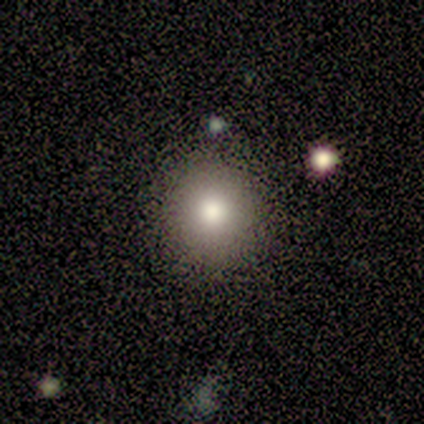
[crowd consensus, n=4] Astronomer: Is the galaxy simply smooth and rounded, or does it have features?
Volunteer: smooth — 100%.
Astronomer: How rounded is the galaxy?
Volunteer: round — 100%.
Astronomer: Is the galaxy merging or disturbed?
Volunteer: none — 75%.